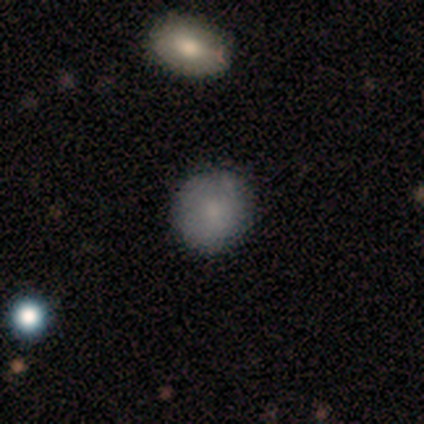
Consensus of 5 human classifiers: This is clearly a smooth galaxy (100%). How rounded: clearly round (80%). Merging: likely none (60%).